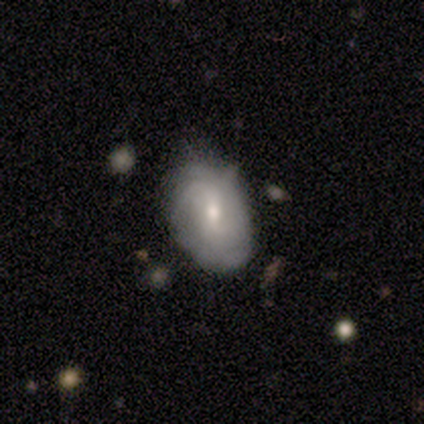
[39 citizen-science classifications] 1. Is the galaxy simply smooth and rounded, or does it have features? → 67% featured or disk, 26% smooth, 8% star or artifact.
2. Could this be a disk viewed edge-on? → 100% no, 0% yes.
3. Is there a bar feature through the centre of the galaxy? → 58% weak, 27% no, 15% strong.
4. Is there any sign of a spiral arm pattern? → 88% yes, 12% no.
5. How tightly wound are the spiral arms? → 48% tight, 35% medium, 17% loose.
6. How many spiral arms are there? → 39% can't tell, 22% 2, 17% 1, 13% 4, 9% 3, 0% more than 4.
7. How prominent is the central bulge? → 65% small, 35% moderate, 0% dominant, 0% large, 0% none.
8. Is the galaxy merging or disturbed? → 75% none, 19% minor disturbance, 6% merger, 0% major disturbance.